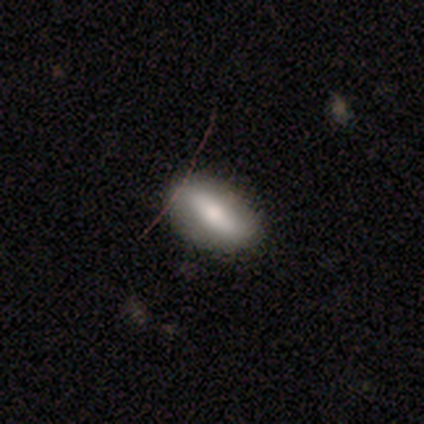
smooth 100%, featured or disk 0%, star or artifact 0%. Down the decision tree: how rounded — in between (75%); merging — none (100%).